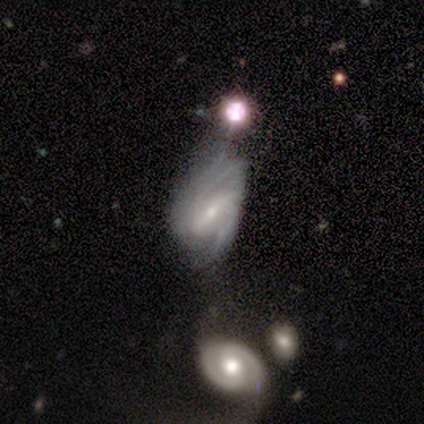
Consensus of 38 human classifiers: This appears to be a featured or disk galaxy (71%) with a strong bar (54%), 2 (48%) medium (48%) spiral arms (81%) and a small central bulge (81%). Merging: minor disturbance (39%).